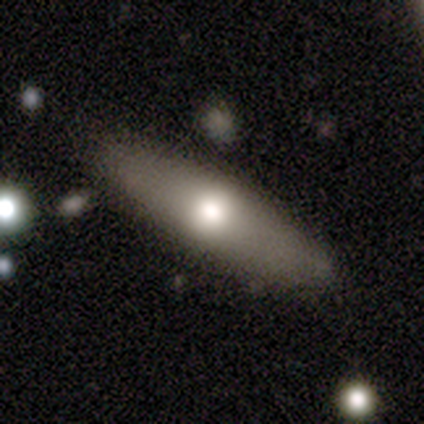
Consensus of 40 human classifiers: This is possibly a smooth galaxy (57%). How rounded: likely cigar-shaped (61%). Merging: likely none (72%).